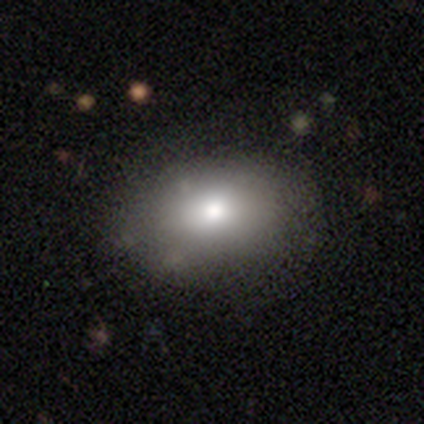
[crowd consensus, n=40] Volunteers were most divided on "how rounded": in between: 75%, round: 25%, cigar-shaped: 0%. More confident: merging — none (86%); smooth or featured — smooth (80%).